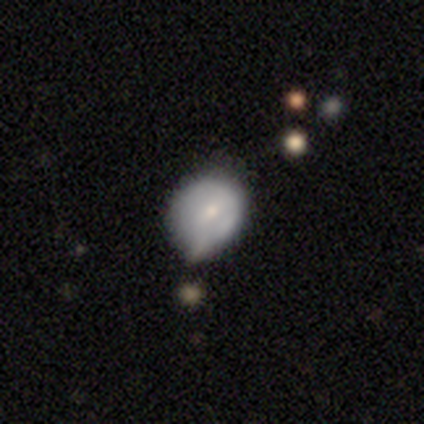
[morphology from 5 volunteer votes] This is clearly a smooth galaxy (100%). How rounded: clearly round (80%). Merging: clearly none (80%).